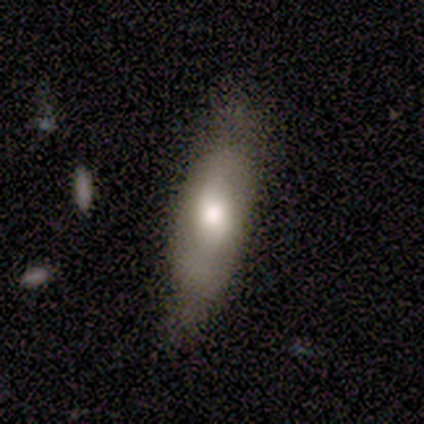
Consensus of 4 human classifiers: Smooth or featured?
  - smooth: 50% *
  - featured or disk: 25%
  - star or artifact: 25%
How rounded?
  - cigar-shaped: 100% *
  - round: 0%
  - in between: 0%
Merging?
  - minor disturbance: 67% *
  - none: 33%
  - major disturbance: 0%
  - merger: 0%